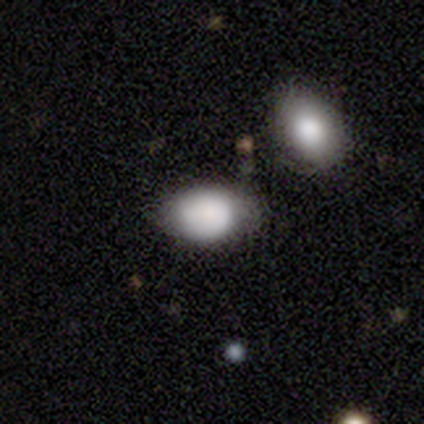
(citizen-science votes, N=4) Smooth or featured?
  - smooth: 75% *
  - featured or disk: 25%
  - star or artifact: 0%
How rounded?
  - in between: 67% *
  - round: 33%
  - cigar-shaped: 0%
Merging?
  - minor disturbance: 75% *
  - none: 25%
  - major disturbance: 0%
  - merger: 0%